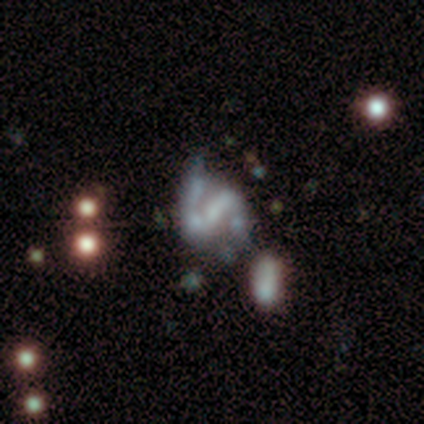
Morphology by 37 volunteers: A featured or disk galaxy (86%) with a strong bar (50%), 2 (93%) medium (48%) spiral arms (91%) and no central bulge (47%). Merging: none (50%).